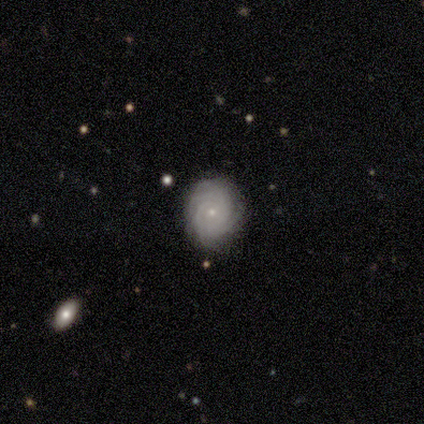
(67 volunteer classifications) Morphology: type=featured or disk (82%); edge-on=no (96%); bar=no (87%); spiral arms=yes (94%); winding=tight (92%); arm count=can't tell (30%); bulge=small (81%); merging=none (85%).